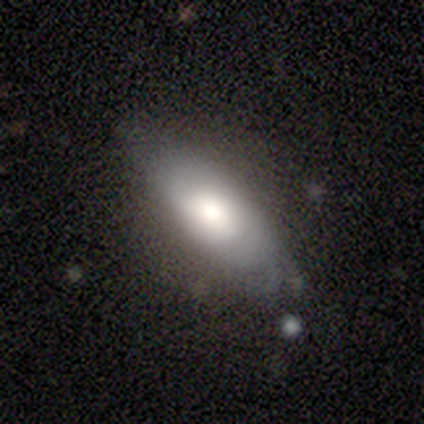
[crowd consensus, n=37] A smooth galaxy with no disk features (54%) that is in between round and cigar-shaped (70%). Merging: none (60%).